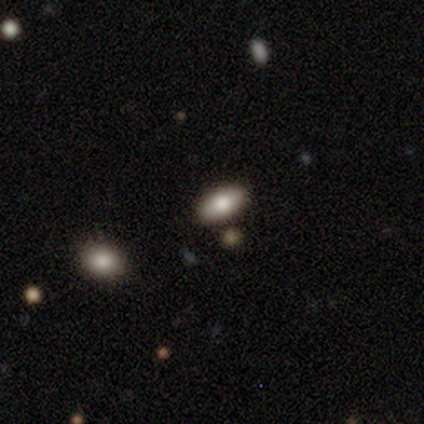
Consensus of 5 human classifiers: Smooth or featured? smooth (80%)
How rounded? in between (100%)
Merging? none (100%)